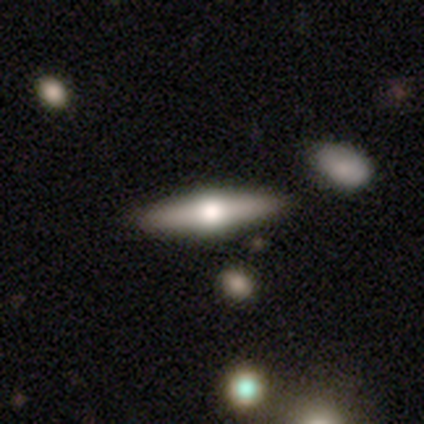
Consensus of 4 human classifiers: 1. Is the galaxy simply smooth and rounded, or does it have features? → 75% featured or disk, 25% smooth, 0% star or artifact.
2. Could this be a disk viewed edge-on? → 100% yes, 0% no.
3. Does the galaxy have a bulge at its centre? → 67% rounded, 33% boxy, 0% none.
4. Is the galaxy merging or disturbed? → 100% none, 0% minor disturbance, 0% major disturbance, 0% merger.